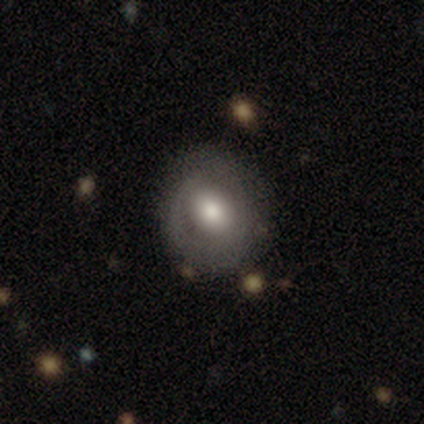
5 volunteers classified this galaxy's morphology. Volunteers were most divided on "how rounded": round: 75%, in between: 25%, cigar-shaped: 0%. More confident: smooth or featured — smooth (80%); merging — none (80%).